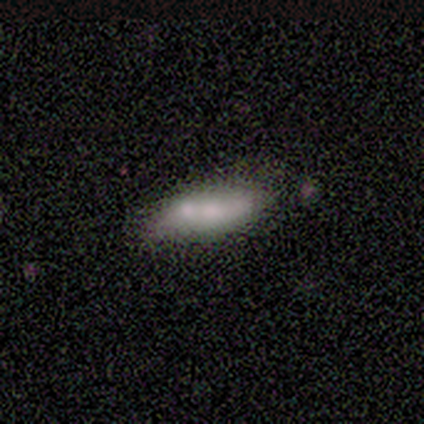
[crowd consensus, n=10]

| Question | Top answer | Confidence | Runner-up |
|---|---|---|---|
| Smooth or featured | smooth | 60% | featured or disk (40%) |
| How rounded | in between | 67% | cigar-shaped (33%) |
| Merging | merger | 50% | minor disturbance (30%) |